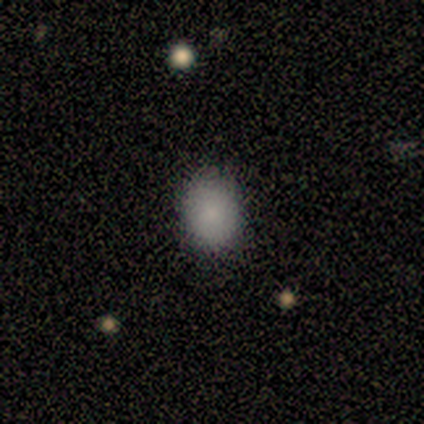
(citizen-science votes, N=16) This is clearly a smooth galaxy (100%). How rounded: possibly round (56%). Merging: clearly none (94%).